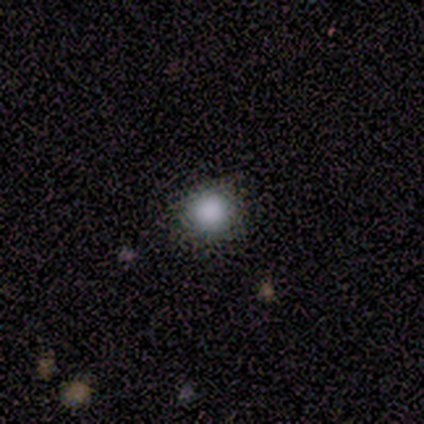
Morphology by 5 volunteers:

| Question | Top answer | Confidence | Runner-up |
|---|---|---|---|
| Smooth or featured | smooth | 80% | star or artifact (20%) |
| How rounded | round | 75% | in between (25%) |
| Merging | none | 100% | — |